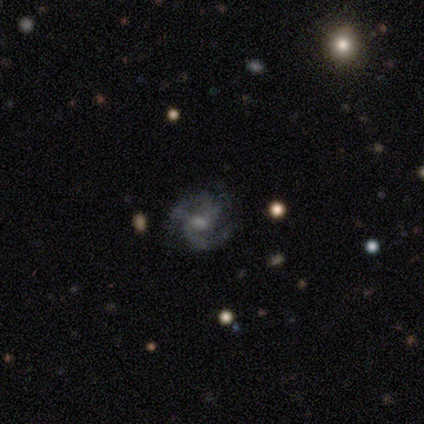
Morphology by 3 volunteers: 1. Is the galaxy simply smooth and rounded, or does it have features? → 33% smooth (tied), 33% featured or disk (tied), 33% star or artifact (tied).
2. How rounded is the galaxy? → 100% round, 0% in between, 0% cigar-shaped.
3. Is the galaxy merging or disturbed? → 50% none (tied), 50% minor disturbance (tied), 0% major disturbance, 0% merger.